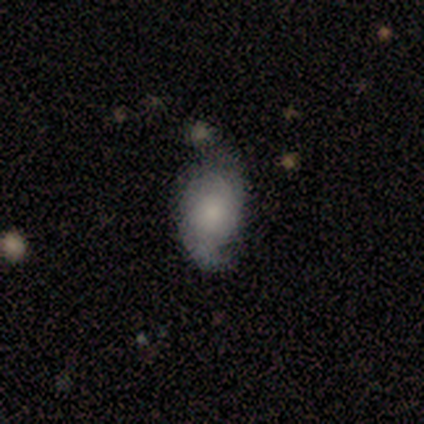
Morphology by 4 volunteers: smooth_or_featured: featured or disk (p=1.00)
disk_edge_on: no (p=1.00)
bar: no (p=0.75) [alt: weak p=0.25]
has_spiral_arms: yes (p=0.75) [alt: no p=0.25]
spiral_winding: loose (p=0.67) [alt: medium p=0.33]
spiral_arm_count: 2 (p=1.00)
bulge_size: moderate (p=0.50) [alt: large p=0.25]
merging: none (p=0.50) [tied with: minor disturbance p=0.50]